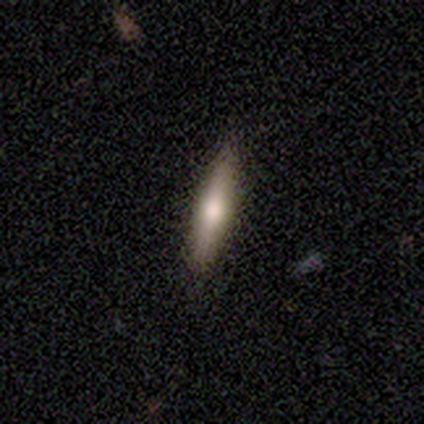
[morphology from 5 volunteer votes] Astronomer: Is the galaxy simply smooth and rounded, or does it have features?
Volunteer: featured or disk — 80%.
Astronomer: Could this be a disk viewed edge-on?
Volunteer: yes — 100%.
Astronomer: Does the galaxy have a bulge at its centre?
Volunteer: rounded — 100%.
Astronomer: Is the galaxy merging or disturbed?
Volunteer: none — 60% (runner-up: minor disturbance, 40%).